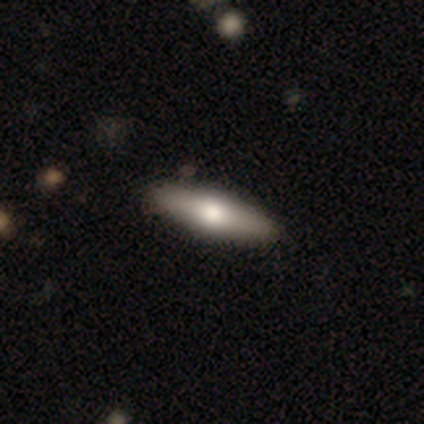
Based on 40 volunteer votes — smooth 62%, featured or disk 38%, star or artifact 0%. Down the decision tree: how rounded — cigar-shaped (64%); merging — none (68%).